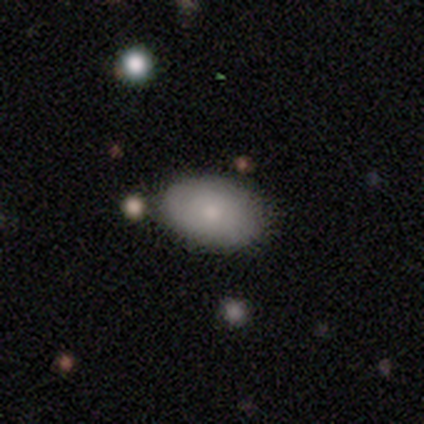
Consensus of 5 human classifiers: smooth 60%, featured or disk 40%, star or artifact 0%. Down the decision tree: how rounded — in between (100%); merging — none (100%).